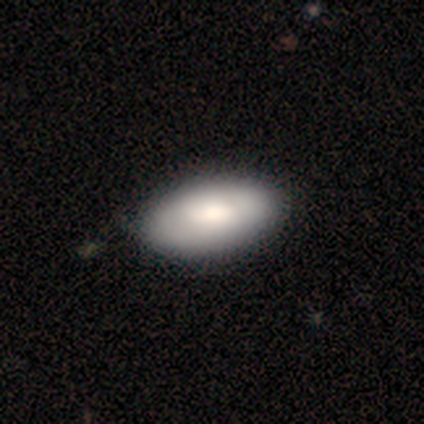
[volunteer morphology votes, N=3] Smooth or featured? 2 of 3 (67%) said smooth. How rounded? 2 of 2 (100%) said in between. Merging? 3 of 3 (100%) said none.